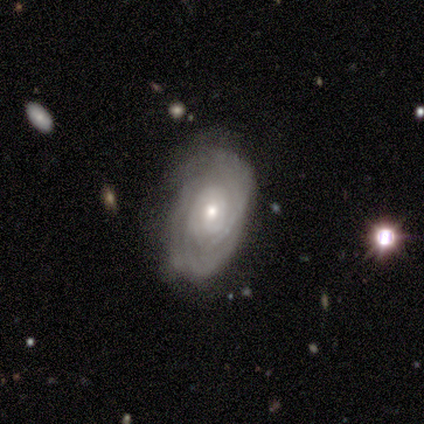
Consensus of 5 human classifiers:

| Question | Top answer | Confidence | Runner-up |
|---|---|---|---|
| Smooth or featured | featured or disk | 100% | — |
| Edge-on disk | no | 100% | — |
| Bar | no | 100% | — |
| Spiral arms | yes | 100% | — |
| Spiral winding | tight | 80% | medium (20%) |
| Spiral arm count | can't tell | 80% | 2 (20%) |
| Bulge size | moderate | 60% | small (40%) |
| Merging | none | 60% | minor disturbance (20%) |